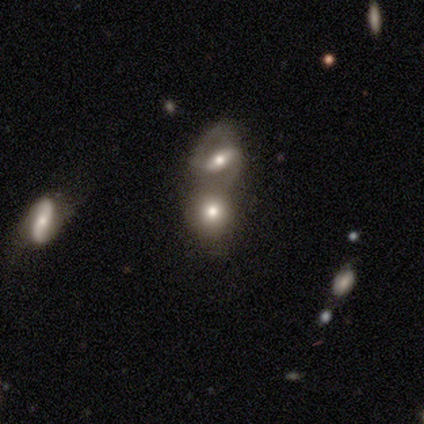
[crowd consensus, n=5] Overall: smooth (60%; featured or disk 20%). How rounded: round (100%). Merging: none (50%, tied with merger).